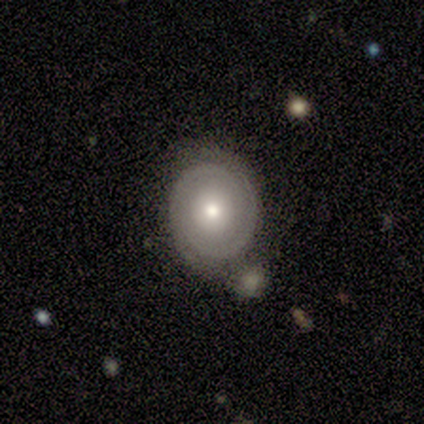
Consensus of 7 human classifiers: A featured or disk galaxy (57%) with no bar (75%), 2 (75%) tight (75%) spiral arms (100%) and a moderate central bulge (50%).

Vote fractions:
- Smooth or featured? featured or disk: 57% / smooth: 43% / star or artifact: 0%
- Edge-on disk? no: 100% / yes: 0%
- Bar? no: 75% / weak: 25% / strong: 0%
- Spiral arms? yes: 100% / no: 0%
- Spiral winding? tight: 75% / medium: 25% / loose: 0%
- Spiral arm count? 2: 75% / can't tell: 25% / 1: 0% / 3: 0% / 4: 0% / more than 4: 0%
- Bulge size? moderate: 50% / large: 25% / small: 25% / dominant: 0% / none: 0%
- Merging? none: 57% / major disturbance: 29% / minor disturbance: 14% / merger: 0%